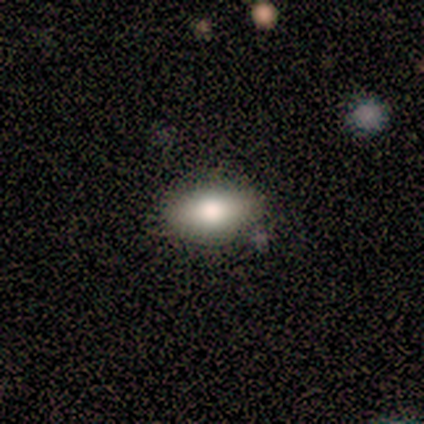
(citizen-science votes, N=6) smooth 100%, featured or disk 0%, star or artifact 0%. Down the decision tree: how rounded — in between (83%); merging — none (83%).